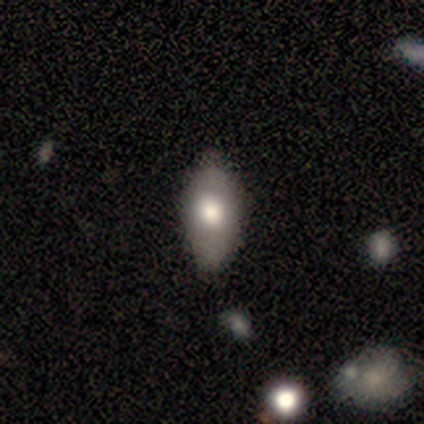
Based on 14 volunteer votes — Smooth or featured?
  - smooth: 71% *
  - featured or disk: 21%
  - star or artifact: 7%
How rounded?
  - in between: 90% *
  - cigar-shaped: 10%
  - round: 0%
Merging?
  - none: 85% *
  - minor disturbance: 15%
  - major disturbance: 0%
  - merger: 0%